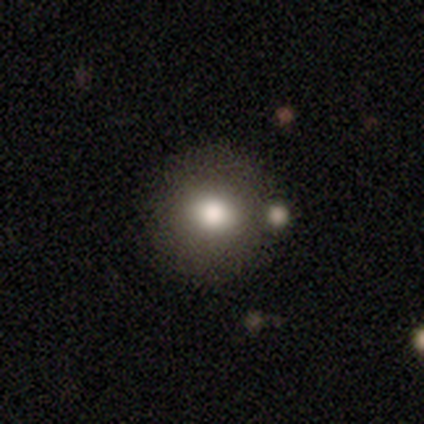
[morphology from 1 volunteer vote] This is clearly a smooth galaxy (100%). How rounded: clearly round (100%). Merging: clearly none (100%).